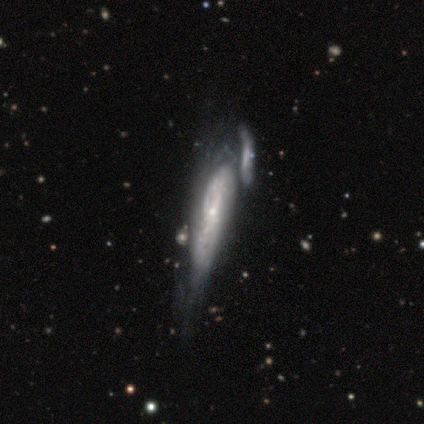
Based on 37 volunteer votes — Smooth or featured? featured or disk (76%)
Edge-on disk? no (61%)
Bar? no (71%)
Spiral arms? yes (53%)
Spiral winding? tight (100%)
Spiral arm count? can't tell (56%)
Bulge size? small (82%)
Merging? merger (58%)